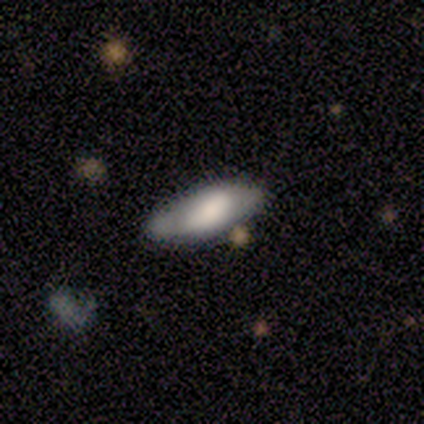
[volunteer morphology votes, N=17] Overall: smooth (65%; featured or disk 29%). How rounded: in between (73%). Merging: none (81%).